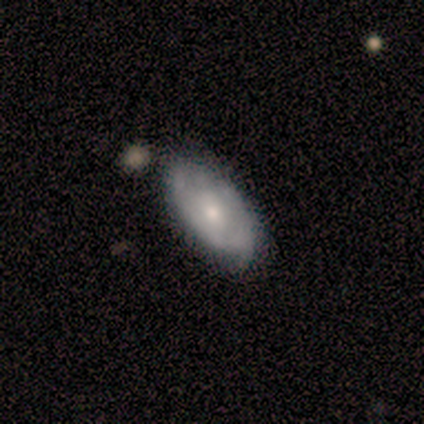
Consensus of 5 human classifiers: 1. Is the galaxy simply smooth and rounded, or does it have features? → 60% smooth, 40% featured or disk, 0% star or artifact.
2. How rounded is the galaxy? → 67% in between, 33% round, 0% cigar-shaped.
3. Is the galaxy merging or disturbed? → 80% none, 20% minor disturbance, 0% major disturbance, 0% merger.